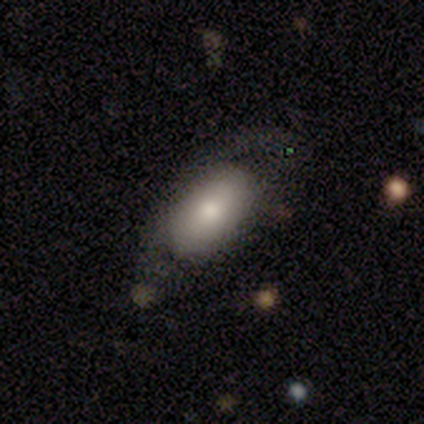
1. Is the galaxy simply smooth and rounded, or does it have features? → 59% smooth, 38% featured or disk, 3% star or artifact.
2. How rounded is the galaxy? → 91% in between, 4% round, 4% cigar-shaped.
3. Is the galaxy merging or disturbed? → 58% none, 21% minor disturbance, 18% major disturbance, 3% merger.